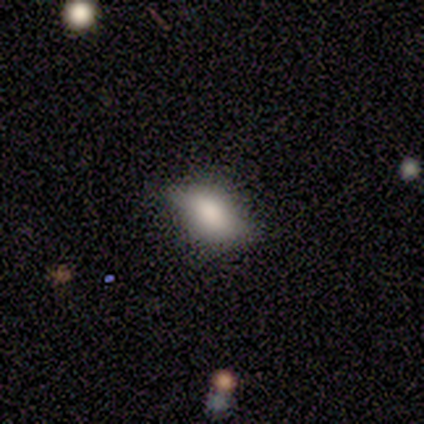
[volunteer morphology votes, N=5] featured or disk 60%, smooth 40%, star or artifact 0%. Down the decision tree: edge-on disk — yes (100%); edge-on bulge — rounded (67%); merging — none (60%).